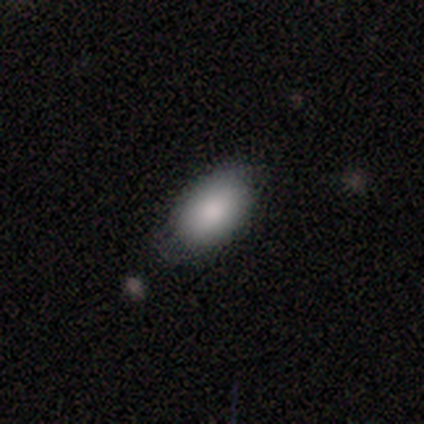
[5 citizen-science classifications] Smooth or featured?
  - smooth: 80% *
  - featured or disk: 20%
  - star or artifact: 0%
How rounded?
  - in between: 100% *
  - round: 0%
  - cigar-shaped: 0%
Merging?
  - none: 80% *
  - minor disturbance: 20%
  - major disturbance: 0%
  - merger: 0%